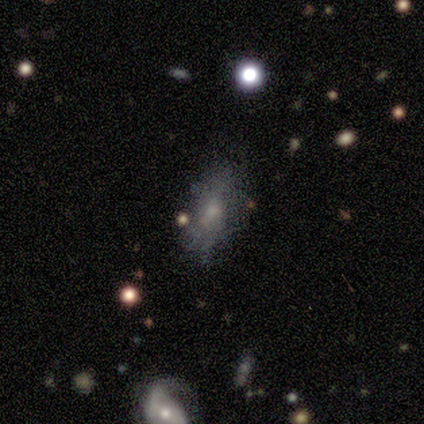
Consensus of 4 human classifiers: smooth_or_featured: smooth (p=0.50) [alt: featured or disk p=0.25]
how_rounded: in between (p=1.00)
merging: merger (p=0.67) [alt: none p=0.33]